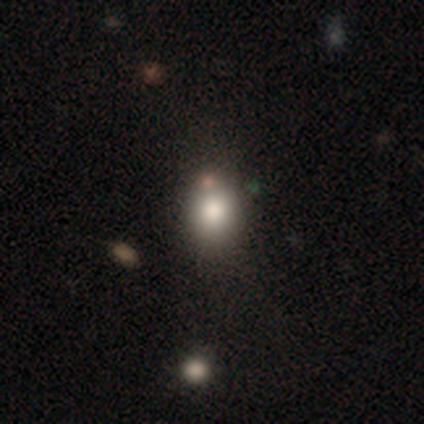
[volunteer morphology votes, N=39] smooth-or-featured: smooth: 77% | star or artifact: 13% | featured or disk: 10%
  how-rounded: in between: 57% | round: 43% | cigar-shaped: 0%
  merging: none: 59% | minor disturbance: 24% | merger: 12% | major disturbance: 6%